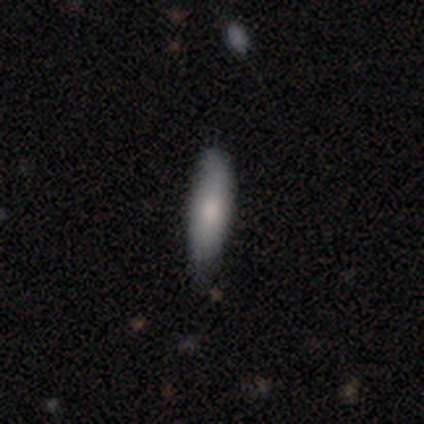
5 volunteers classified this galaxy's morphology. A smooth galaxy with no disk features (100%) that is cigar-shaped (100%). Merging: none (80%).